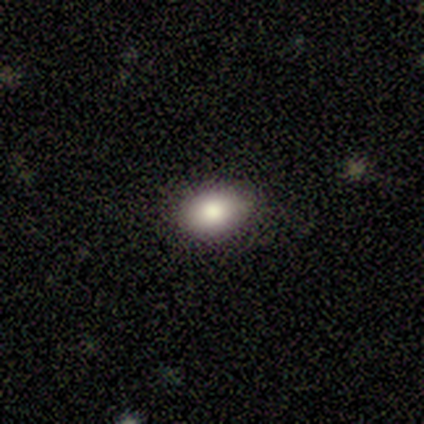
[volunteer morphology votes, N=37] This appears to be a smooth galaxy with no disk features (78%) that is in between round and cigar-shaped (76%). Merging: none (88%).